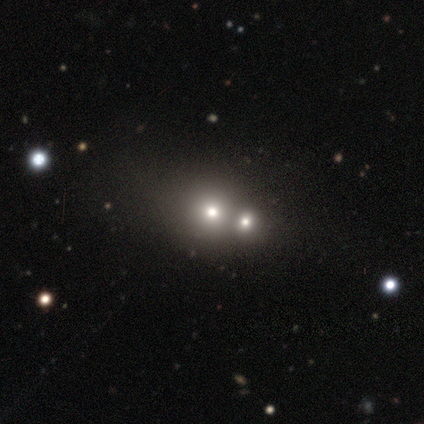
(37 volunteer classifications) Smooth or featured? smooth (62%)
How rounded? round (87%)
Merging? merger (54%)